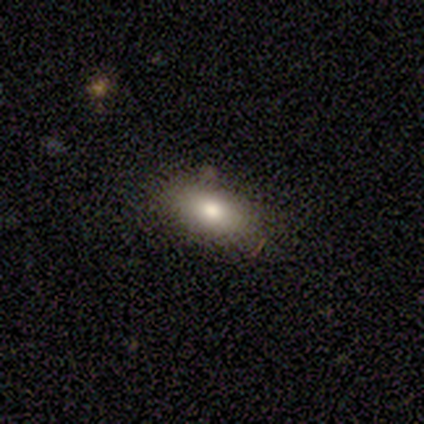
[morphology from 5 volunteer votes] Q: Smooth or featured?
A: smooth (80%); runner-up: featured or disk (20%)
Q: How rounded?
A: in between (100%)
Q: Merging?
A: none (80%); runner-up: minor disturbance (20%)